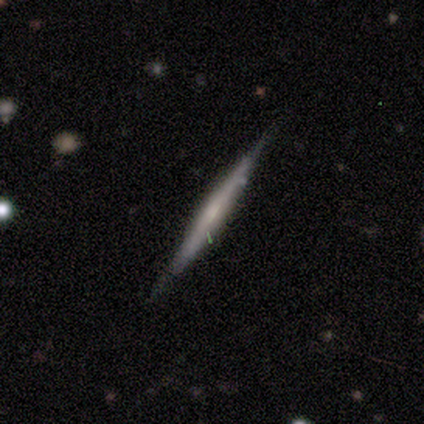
Overall: featured or disk (60%; smooth 40%). Edge-on disk: yes (100%). Edge-on bulge: none (67%; rounded 33%). Merging: none (100%).